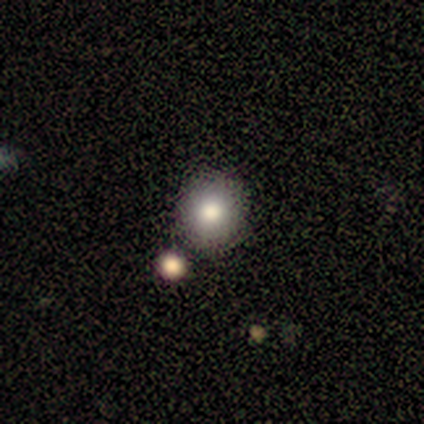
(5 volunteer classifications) Smooth or featured?
  - smooth: 60% *
  - star or artifact: 40%
  - featured or disk: 0%
How rounded?
  - round: 100% *
  - in between: 0%
  - cigar-shaped: 0%
Merging?
  - none: 100% *
  - minor disturbance: 0%
  - major disturbance: 0%
  - merger: 0%